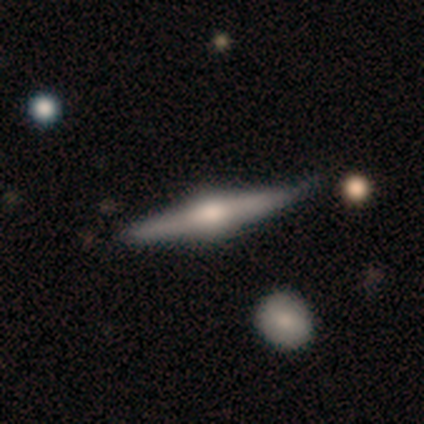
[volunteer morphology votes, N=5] Smooth or featured? 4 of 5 (80%) said featured or disk. Edge-on disk? 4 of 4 (100%) said yes. Edge-on bulge? 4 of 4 (100%) said rounded. Merging? 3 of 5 (60%) said minor disturbance.